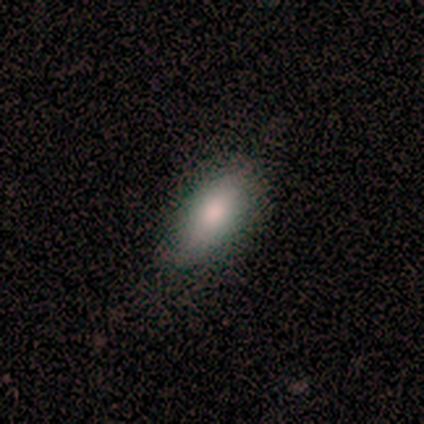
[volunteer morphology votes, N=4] A smooth galaxy with no disk features (50%) that is in between round and cigar-shaped (100%).

Vote fractions:
- Smooth or featured? smooth: 50% / featured or disk: 25% / star or artifact: 25%
- How rounded? in between: 100% / round: 0% / cigar-shaped: 0%
- Merging? none: 67% / minor disturbance: 33% / major disturbance: 0% / merger: 0%